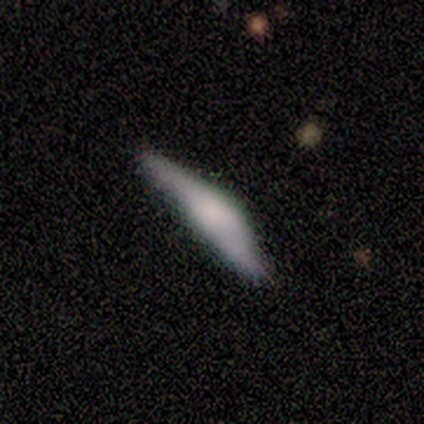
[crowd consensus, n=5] Smooth or featured: smooth — 60% (featured or disk — 40%)
How rounded: cigar-shaped — 67% (in between — 33%)
Merging: none — 60% (minor disturbance — 40%)